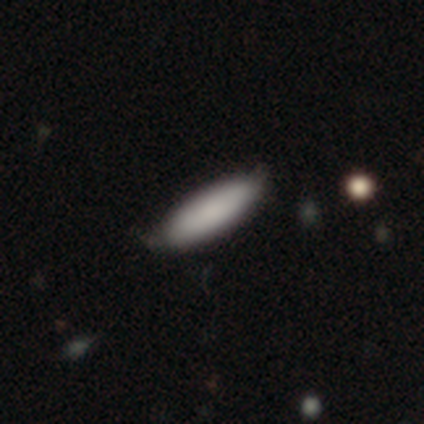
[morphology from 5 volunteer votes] smooth 100%, featured or disk 0%, star or artifact 0%. Down the decision tree: how rounded — in between (80%); merging — minor disturbance (60%).